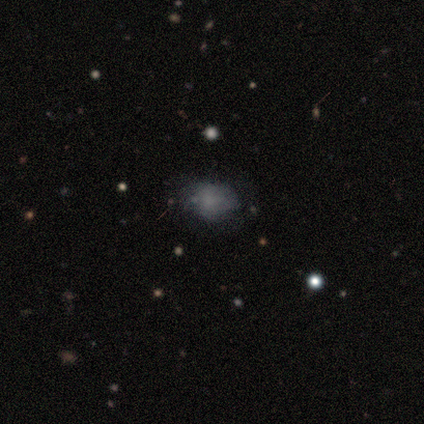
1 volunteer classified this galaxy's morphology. Overall: smooth (100%). How rounded: in between (100%). Merging: none (100%).